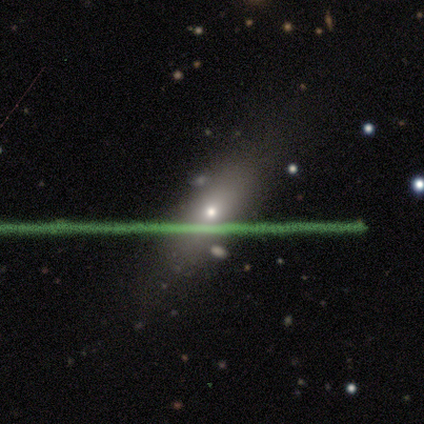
This is likely a featured or disk galaxy (60%). It is clearly viewed edge-on (100%). Edge-on bulge: likely rounded (67%). Merging: clearly none (100%).